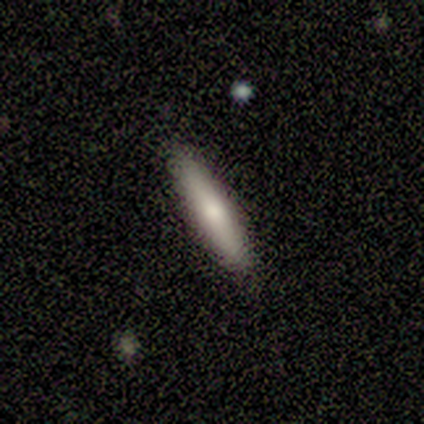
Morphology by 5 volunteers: Q: Smooth or featured?
A: smooth (80%); runner-up: featured or disk (20%)
Q: How rounded?
A: cigar-shaped (100%)
Q: Merging?
A: none (100%)